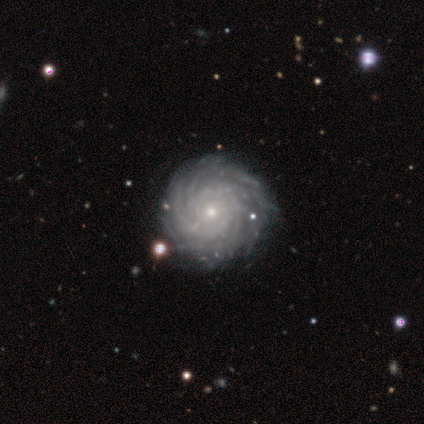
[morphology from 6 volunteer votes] A featured or disk galaxy (100%) with no bar (100%), 4 (33%, tied with more than 4) tight (83%) spiral arms (100%) and a small central bulge (67%).

Vote fractions:
- Smooth or featured? featured or disk: 100% / smooth: 0% / star or artifact: 0%
- Edge-on disk? no: 100% / yes: 0%
- Bar? no: 100% / strong: 0% / weak: 0%
- Spiral arms? yes: 100% / no: 0%
- Spiral winding? tight: 83% / medium: 17% / loose: 0%
- Spiral arm count? 4: 33% (tied) / more than 4: 33% (tied) / 3: 17% / can't tell: 17% / 1: 0% / 2: 0%
- Bulge size? small: 67% / moderate: 33% / dominant: 0% / large: 0% / none: 0%
- Merging? none: 100% / minor disturbance: 0% / major disturbance: 0% / merger: 0%